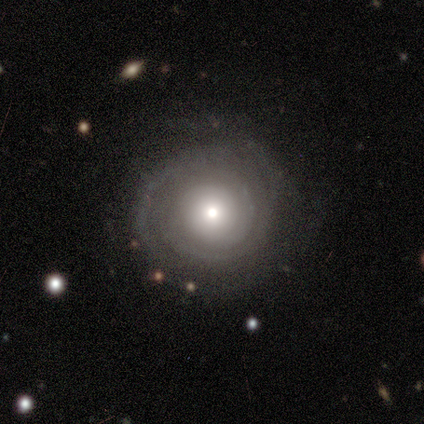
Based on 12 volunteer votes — Smooth or featured: featured or disk — 92% (smooth — 8%)
Edge-on disk: no — 100%
Bar: no — 82% (strong — 9%)
Spiral arms: yes — 91% (no — 9%)
Spiral winding: tight — 90% (medium — 10%)
Spiral arm count: 2 — 40% (tied with can't tell — 40%)
Bulge size: moderate — 45% (large — 27%)
Merging: none — 75% (minor disturbance — 25%)